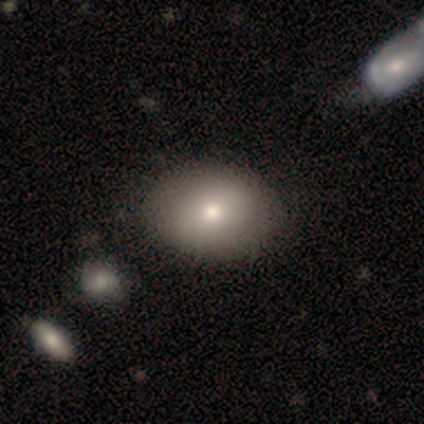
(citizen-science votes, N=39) Volunteers were most divided on "how rounded": in between: 61%, round: 39%, cigar-shaped: 0%. More confident: smooth or featured — smooth (85%); merging — none (51%).